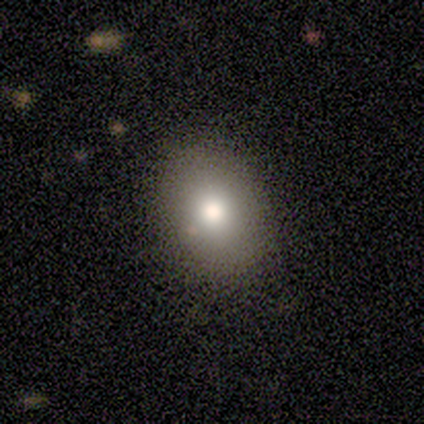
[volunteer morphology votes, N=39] A smooth galaxy with no disk features (79%) that is in between round and cigar-shaped (68%). Merging: none (76%).